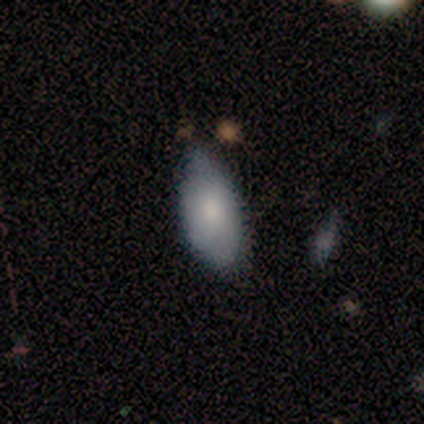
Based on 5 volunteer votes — Morphology: type=smooth (80%); roundness=in between (100%); merging=minor disturbance (60%).